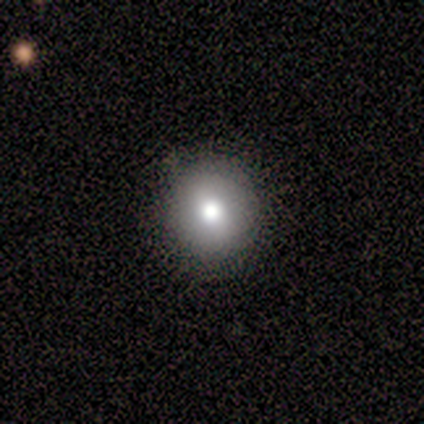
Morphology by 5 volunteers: A smooth galaxy with no disk features (60%) that is round (100%).

Vote fractions:
- Smooth or featured? smooth: 60% / featured or disk: 40% / star or artifact: 0%
- How rounded? round: 100% / in between: 0% / cigar-shaped: 0%
- Merging? none: 80% / major disturbance: 20% / minor disturbance: 0% / merger: 0%